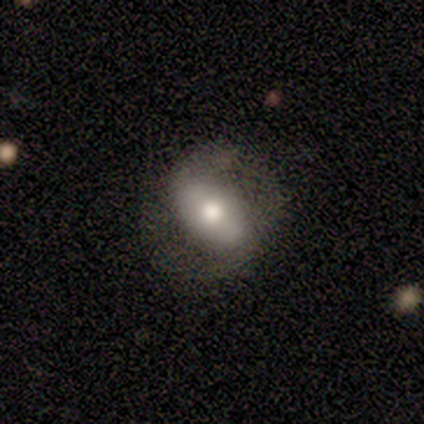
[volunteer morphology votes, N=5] Overall: featured or disk (60%; smooth 20%). Edge-on disk: no (100%). Bar: no (67%; strong 33%). Spiral arms: no (67%; yes 33%). Bulge size: moderate (67%; large 33%). Merging: none (75%).